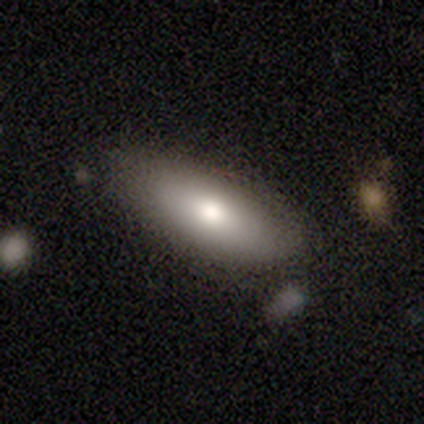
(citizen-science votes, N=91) A smooth galaxy with no disk features (74%) that is in between round and cigar-shaped (81%). Merging: none (85%).